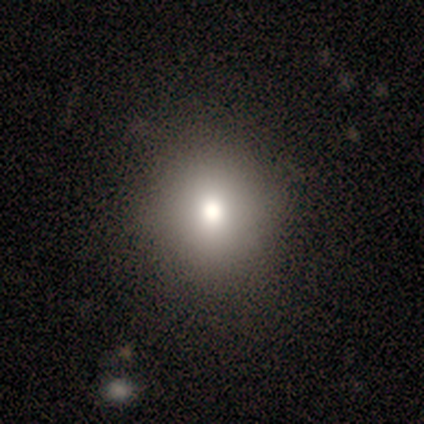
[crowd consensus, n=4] A smooth galaxy with no disk features (50%) that is round (50%, tied with in between).

Vote fractions:
- Smooth or featured? smooth: 50% / featured or disk: 25% / star or artifact: 25%
- How rounded? round: 50% (tied) / in between: 50% (tied) / cigar-shaped: 0%
- Merging? none: 67% / minor disturbance: 33% / major disturbance: 0% / merger: 0%